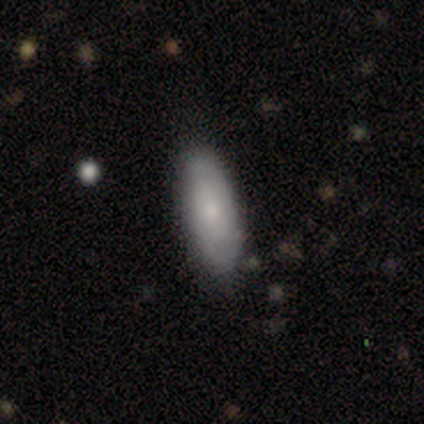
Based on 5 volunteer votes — Morphology: type=smooth (80%); roundness=in between (100%); merging=none (100%).